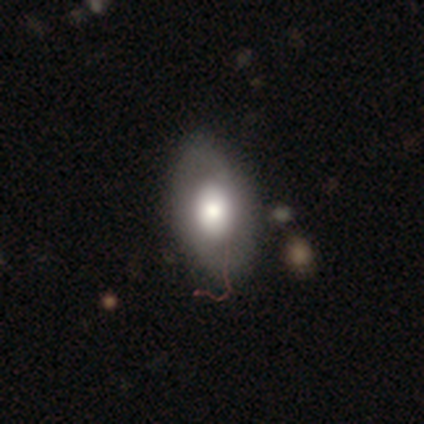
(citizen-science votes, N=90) smooth 53%, featured or disk 43%, star or artifact 3%. Down the decision tree: how rounded — in between (92%); merging — none (64%).